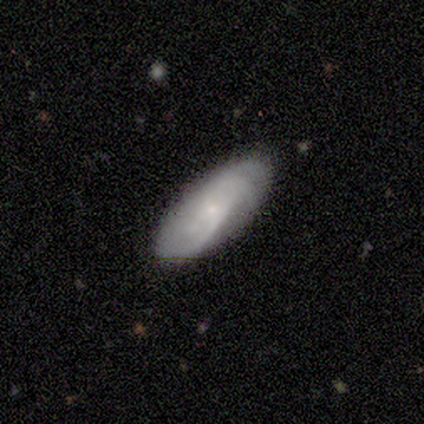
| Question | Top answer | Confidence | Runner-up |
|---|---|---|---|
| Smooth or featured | smooth | 60% | featured or disk (40%) |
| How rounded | in between | 100% | — |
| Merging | none | 100% | — |